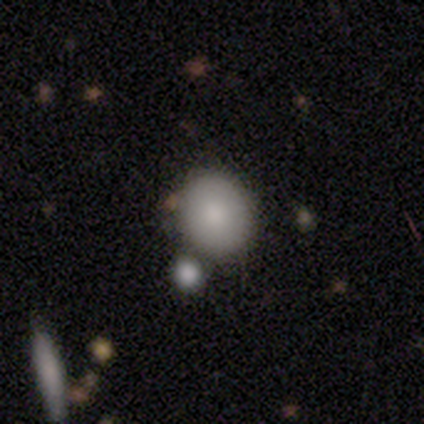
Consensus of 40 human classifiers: smooth 82%, star or artifact 12%, featured or disk 5%. Down the decision tree: how rounded — round (70%); merging — merger (54%).